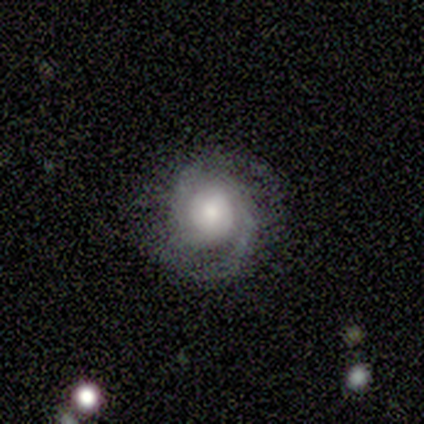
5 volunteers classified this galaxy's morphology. Overall: featured or disk (100%). Edge-on disk: no (100%). Bar: no (80%). Spiral arms: yes (100%). Spiral arm count: 2 (100%). Spiral winding: medium (60%; tight 40%). Bulge size: moderate (60%; large 40%). Merging: none (80%).